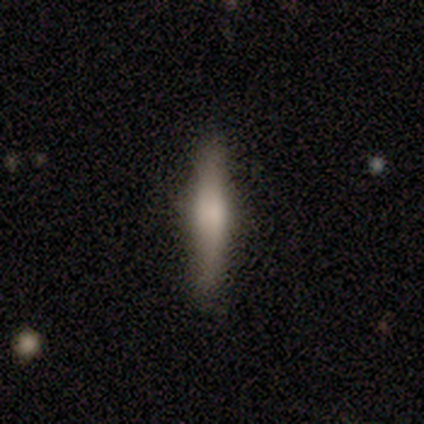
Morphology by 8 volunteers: smooth_or_featured: smooth (p=0.62) [alt: featured or disk p=0.38]
how_rounded: cigar-shaped (p=1.00)
merging: none (p=1.00)